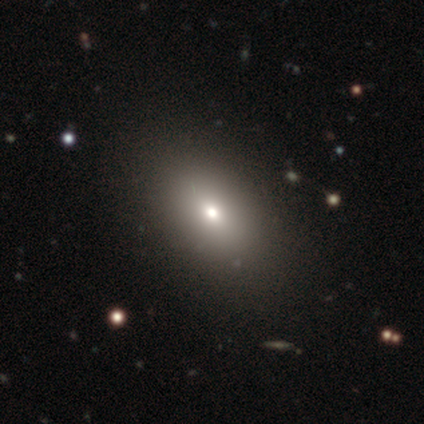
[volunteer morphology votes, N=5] Smooth or featured? 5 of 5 (100%) said smooth. How rounded? 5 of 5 (100%) said in between. Merging? 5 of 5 (100%) said none.